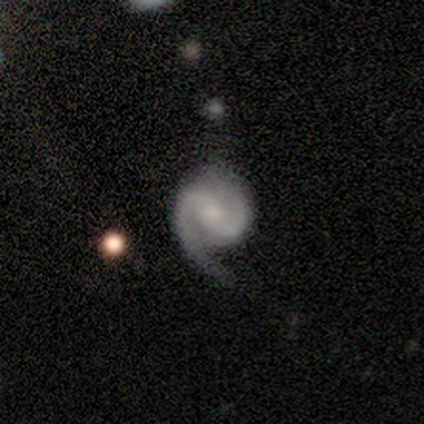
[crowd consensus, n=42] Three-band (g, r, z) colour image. It shows a featured or disk galaxy (90%) with a weak bar (46%), 2 (86%) medium (57%) spiral arms (95%) and a moderate central bulge (46%). Merging: none (48%).